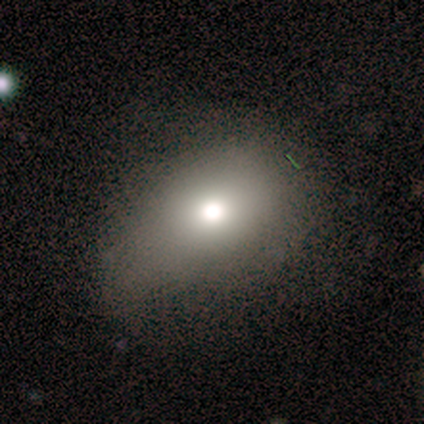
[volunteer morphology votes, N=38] smooth 68%, star or artifact 21%, featured or disk 11%. Down the decision tree: how rounded — in between (62%); merging — none (70%).